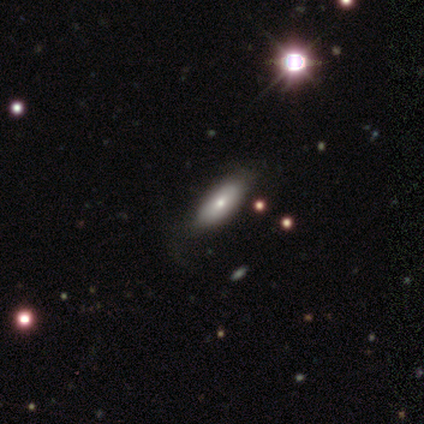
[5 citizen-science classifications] Morphology: type=smooth (80%); roundness=in between (50%, tied with cigar-shaped); merging=major disturbance (50%).